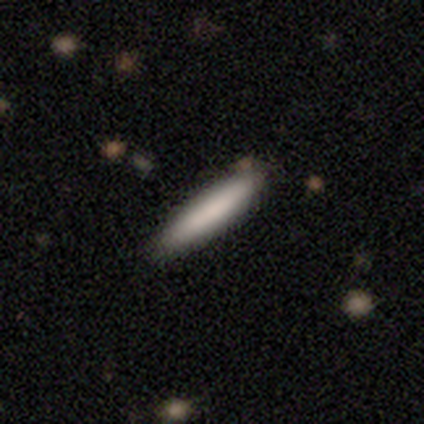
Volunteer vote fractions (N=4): A smooth galaxy with no disk features (100%) that is cigar-shaped (100%). Merging: none (100%).